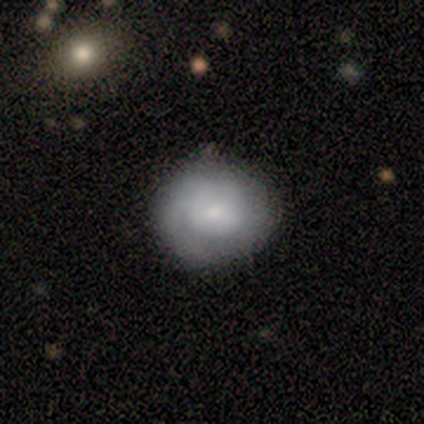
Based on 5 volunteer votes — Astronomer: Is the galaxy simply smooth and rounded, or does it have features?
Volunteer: smooth — 60% (runner-up: featured or disk, 40%).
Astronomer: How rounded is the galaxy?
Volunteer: round — 67%.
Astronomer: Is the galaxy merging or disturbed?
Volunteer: none — 60% (runner-up: minor disturbance, 40%).